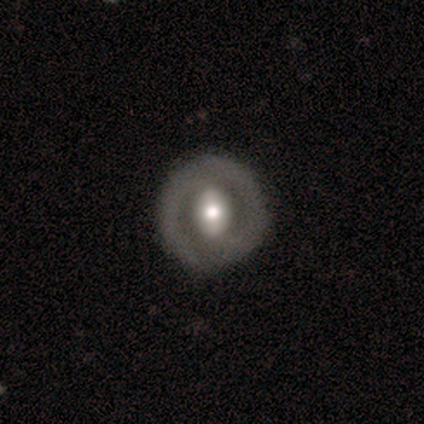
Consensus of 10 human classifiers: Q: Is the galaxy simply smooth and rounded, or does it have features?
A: featured or disk — 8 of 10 (80%).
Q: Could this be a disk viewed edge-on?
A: no — 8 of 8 (100%).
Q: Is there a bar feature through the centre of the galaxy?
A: strong — 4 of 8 (50%).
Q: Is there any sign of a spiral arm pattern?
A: no — 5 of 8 (62%).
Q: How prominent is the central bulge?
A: moderate — 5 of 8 (62%).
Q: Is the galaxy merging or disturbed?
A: none — 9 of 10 (90%).